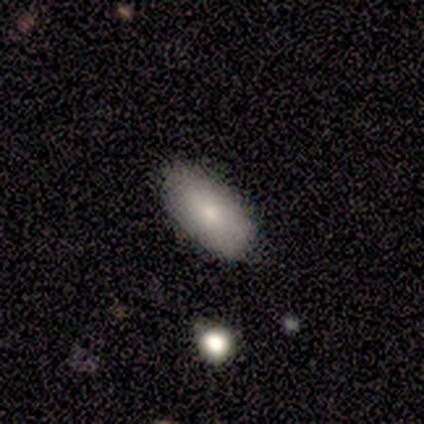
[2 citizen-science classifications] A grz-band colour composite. It shows a smooth galaxy with no disk features (100%) that is in between round and cigar-shaped (100%). Merging: none (100%).